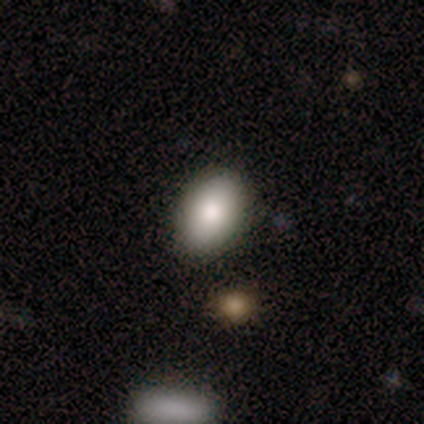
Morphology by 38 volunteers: Smooth or featured? smooth (89%)
How rounded? in between (100%)
Merging? none (95%)